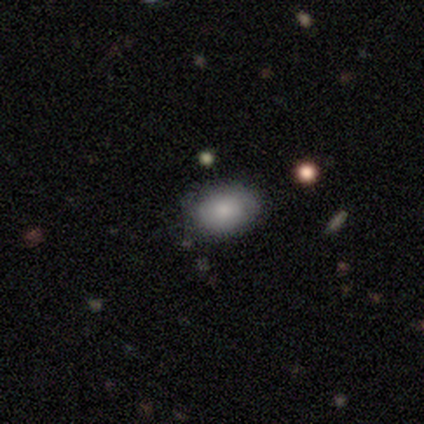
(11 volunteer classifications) Morphology: type=smooth (91%); roundness=in between (80%); merging=none (82%).